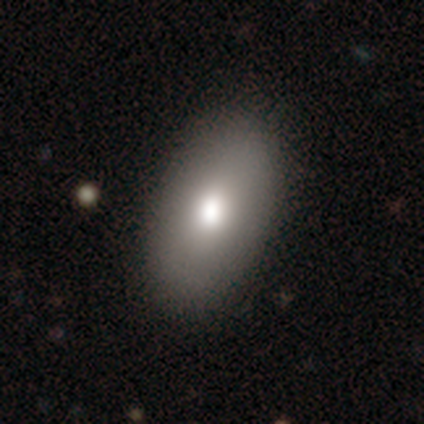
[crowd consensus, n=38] Overall: smooth (79%). How rounded: in between (83%). Merging: none (94%).